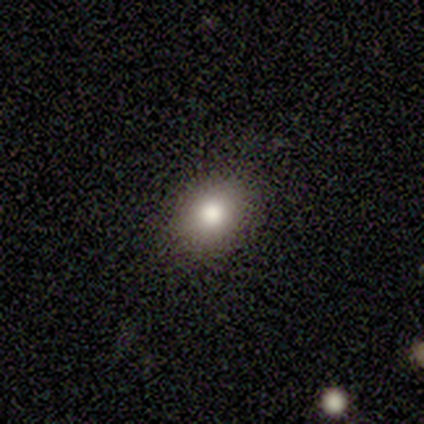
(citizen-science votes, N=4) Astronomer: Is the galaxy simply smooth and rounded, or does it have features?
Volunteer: smooth — 75%.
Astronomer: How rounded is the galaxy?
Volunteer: round — 67%.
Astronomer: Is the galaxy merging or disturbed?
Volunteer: none — 100%.